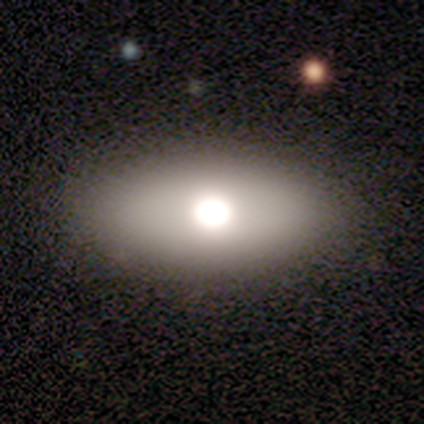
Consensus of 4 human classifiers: Smooth or featured: smooth — 50% (tied with featured or disk — 50%)
How rounded: in between — 100%
Merging: none — 100%